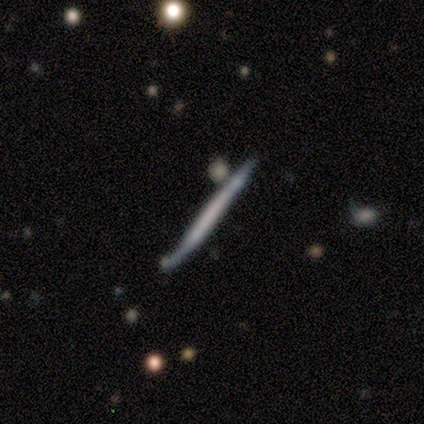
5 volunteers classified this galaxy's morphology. smooth_or_featured: featured or disk (p=0.80) [alt: smooth p=0.20]
disk_edge_on: yes (p=1.00)
edge_on_bulge: none (p=1.00)
merging: none (p=1.00)